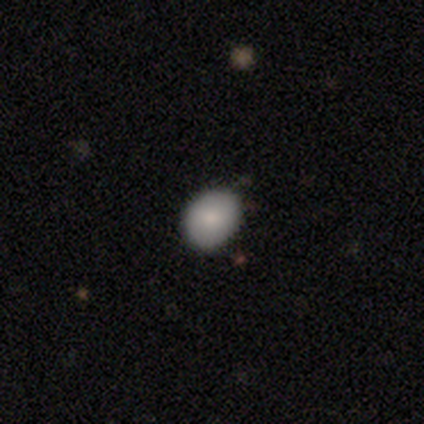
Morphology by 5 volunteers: Volunteers were most divided on "how rounded": in between: 80%, round: 20%, cigar-shaped: 0%. More confident: smooth or featured — smooth (100%); merging — none (80%).